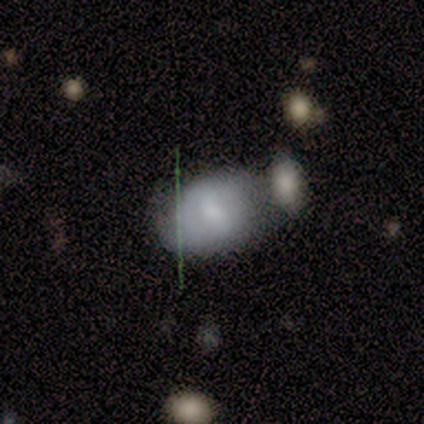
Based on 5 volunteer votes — Volunteers were most divided on "smooth or featured": smooth: 60%, featured or disk: 40%, star or artifact: 0%. More confident: how rounded — in between (100%); merging — none (60%).